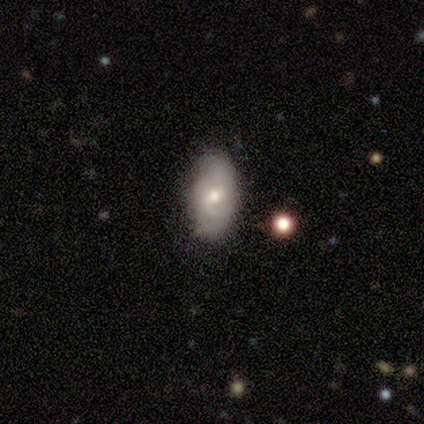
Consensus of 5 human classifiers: A smooth galaxy with no disk features (40%, tied with featured or disk) that is in between round and cigar-shaped (100%). Merging: none (100%).